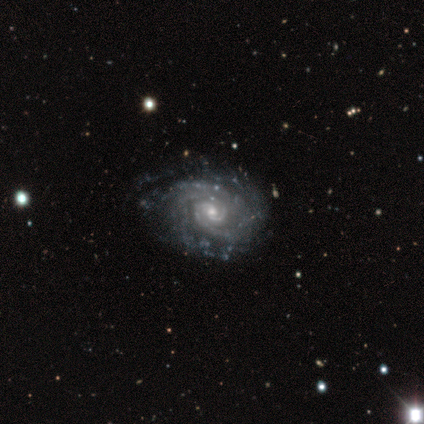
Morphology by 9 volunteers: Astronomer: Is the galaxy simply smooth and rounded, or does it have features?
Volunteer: featured or disk — 100%.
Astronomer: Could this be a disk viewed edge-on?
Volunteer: no — 89%.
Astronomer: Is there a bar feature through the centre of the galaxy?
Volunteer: no — 62%.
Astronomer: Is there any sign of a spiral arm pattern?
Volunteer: yes — 100%.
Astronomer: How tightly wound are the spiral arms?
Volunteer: tight — 100%.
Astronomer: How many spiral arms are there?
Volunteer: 4 — 38% (runner-up: 2, 25%).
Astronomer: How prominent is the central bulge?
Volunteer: moderate — 50%, tied with small at 50%.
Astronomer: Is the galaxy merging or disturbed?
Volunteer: none — 67%.